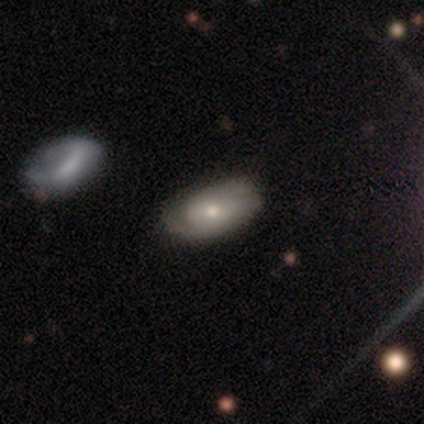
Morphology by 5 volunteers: smooth 60%, featured or disk 40%, star or artifact 0%. Down the decision tree: how rounded — in between (100%); merging — none (40%, tied with minor disturbance).